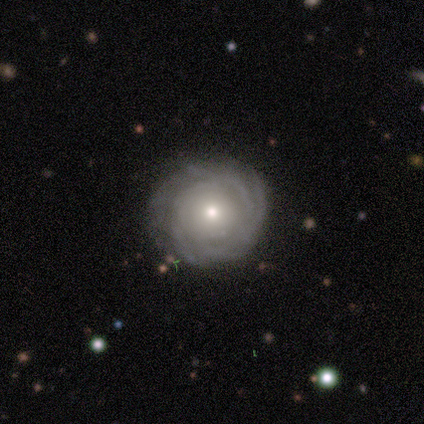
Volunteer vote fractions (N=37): A featured or disk galaxy (84%) with no bar (90%), tight (86%) spiral arms (90%) and a moderate central bulge (48%). Merging: none (72%).